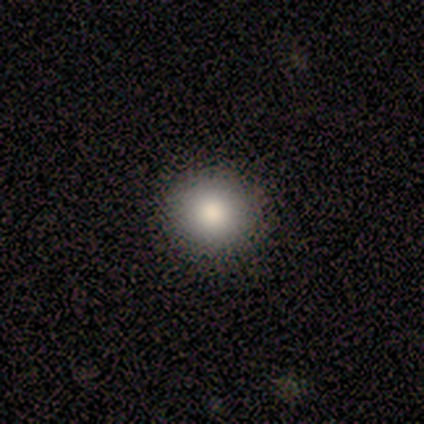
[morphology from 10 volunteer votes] Overall: smooth (70%). How rounded: round (100%). Merging: none (100%).